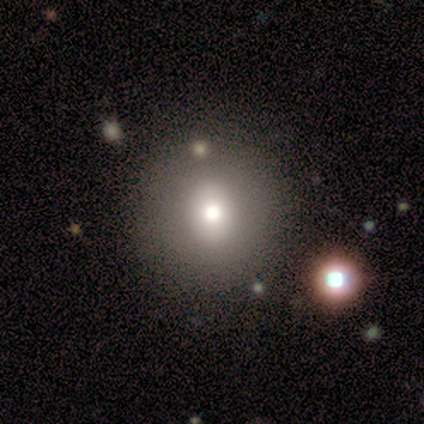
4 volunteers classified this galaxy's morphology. This appears to be a smooth galaxy with no disk features (75%) that is round (100%). Merging: none (100%).